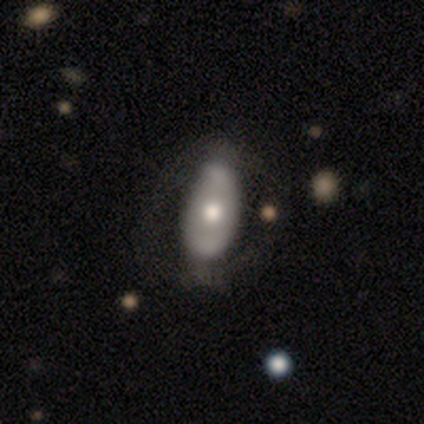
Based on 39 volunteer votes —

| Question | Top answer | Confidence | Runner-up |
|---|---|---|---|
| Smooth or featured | featured or disk | 56% | smooth (41%) |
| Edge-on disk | no | 100% | — |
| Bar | no | 64% | strong (27%) |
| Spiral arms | no | 64% | yes (36%) |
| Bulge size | moderate | 64% | large (23%) |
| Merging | none | 24% | minor disturbance (16%) |